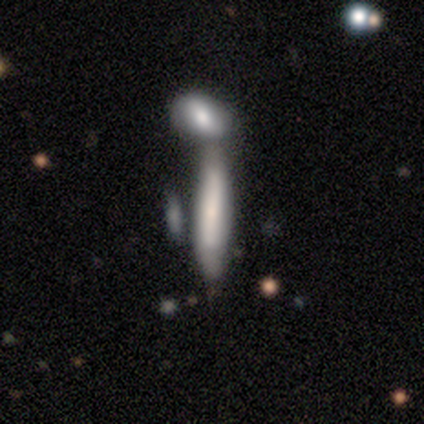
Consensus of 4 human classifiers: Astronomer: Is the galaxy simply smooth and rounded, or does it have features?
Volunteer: smooth — 50%.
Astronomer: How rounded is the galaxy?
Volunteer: in between — 50%, tied with cigar-shaped at 50%.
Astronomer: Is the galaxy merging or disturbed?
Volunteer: none — 33%, tied with minor disturbance and merger at 33%.